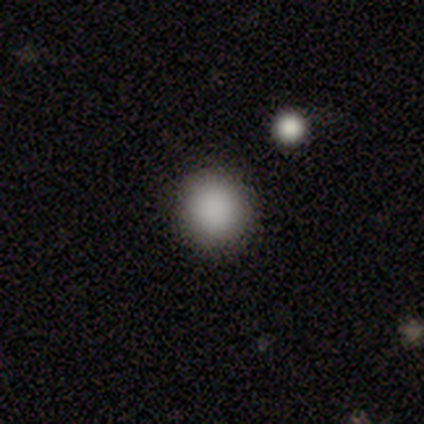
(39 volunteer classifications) This appears to be a smooth galaxy with no disk features (85%) that is round (94%). Merging: none (91%).